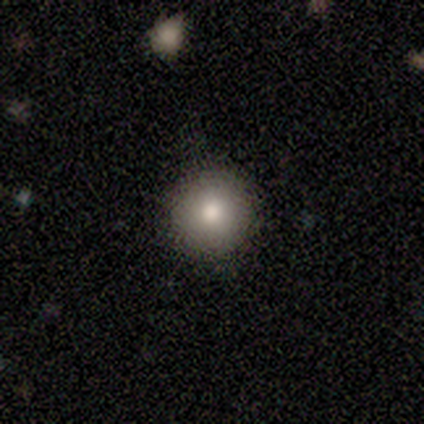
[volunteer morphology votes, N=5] Overall: smooth (80%). How rounded: round (100%). Merging: none (100%).